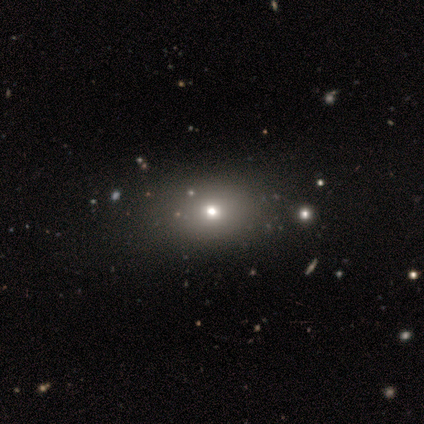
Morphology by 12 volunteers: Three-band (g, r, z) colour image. It shows a smooth galaxy with no disk features (58%) that is round (71%). Merging: none (88%).